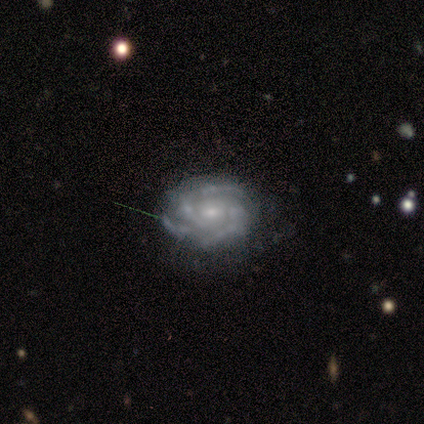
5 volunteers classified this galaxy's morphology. smooth-or-featured: featured or disk: 80% | star or artifact: 20% | smooth: 0%
  disk-edge-on: no: 100% | yes: 0%
    bar: weak: 75% | no: 25% | strong: 0%
    has-spiral-arms: yes: 100% | no: 0%
      spiral-winding: tight: 75% | medium: 25% | loose: 0%
      spiral-arm-count: 3: 75% | 4: 25% | 1: 0% | 2: 0% | more than 4: 0% | can't tell: 0%
    bulge-size: small: 50% | moderate: 25% | none: 25% | dominant: 0% | large: 0%
  merging: none: 75% | minor disturbance: 25% | major disturbance: 0% | merger: 0%